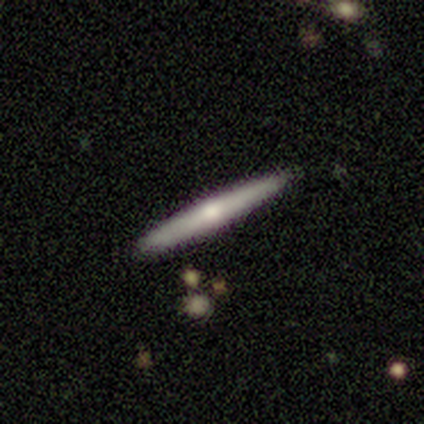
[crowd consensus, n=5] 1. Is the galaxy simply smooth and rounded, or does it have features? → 60% featured or disk, 40% smooth, 0% star or artifact.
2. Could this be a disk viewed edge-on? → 100% yes, 0% no.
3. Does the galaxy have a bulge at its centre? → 67% rounded, 33% none, 0% boxy.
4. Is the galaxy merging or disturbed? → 100% none, 0% minor disturbance, 0% major disturbance, 0% merger.